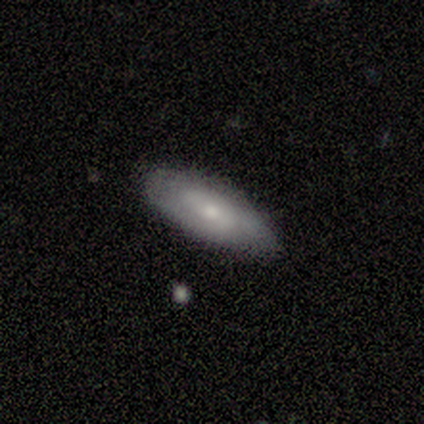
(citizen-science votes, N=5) smooth_or_featured: featured or disk (p=1.00)
disk_edge_on: no (p=0.80) [alt: yes p=0.20]
bar: no (p=1.00)
has_spiral_arms: no (p=0.75) [alt: yes p=0.25]
bulge_size: moderate (p=0.50) [tied with: small p=0.50]
merging: none (p=0.40) [tied with: minor disturbance p=0.40]